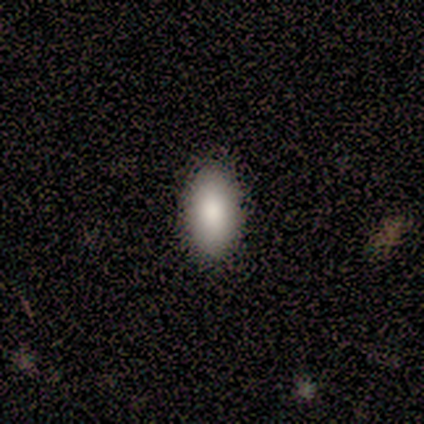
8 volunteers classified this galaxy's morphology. Smooth or featured?
  - smooth: 75% *
  - featured or disk: 25%
  - star or artifact: 0%
How rounded?
  - in between: 100% *
  - round: 0%
  - cigar-shaped: 0%
Merging?
  - none: 88% *
  - minor disturbance: 12%
  - major disturbance: 0%
  - merger: 0%